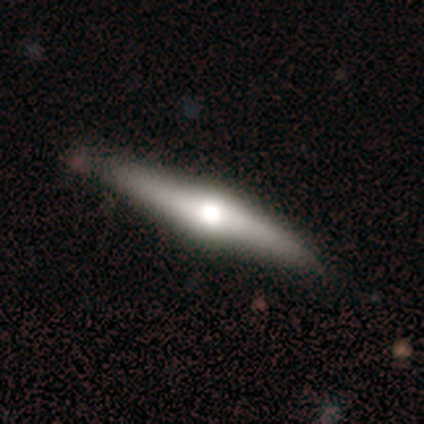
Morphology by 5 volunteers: Volunteers were most divided on "edge-on disk": yes: 75%, no: 25%. More confident: edge-on bulge — rounded (100%); merging — none (100%); smooth or featured — featured or disk (80%).